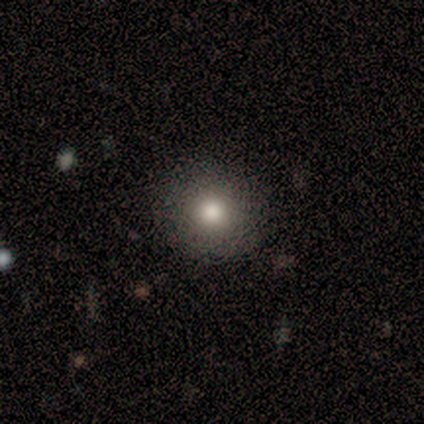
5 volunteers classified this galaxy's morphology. A smooth galaxy with no disk features (80%) that is round (100%).

Vote fractions:
- Smooth or featured? smooth: 80% / star or artifact: 20% / featured or disk: 0%
- How rounded? round: 100% / in between: 0% / cigar-shaped: 0%
- Merging? none: 75% / minor disturbance: 25% / major disturbance: 0% / merger: 0%